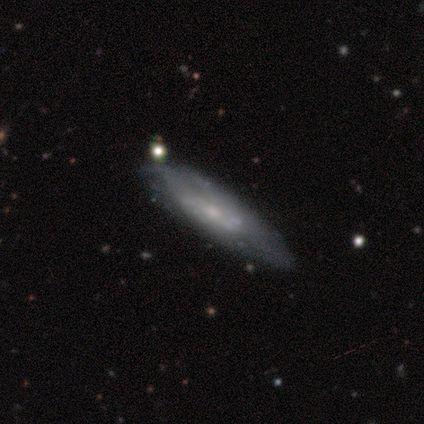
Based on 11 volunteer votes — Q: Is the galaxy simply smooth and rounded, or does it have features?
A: smooth — 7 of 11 (64%).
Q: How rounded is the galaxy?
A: cigar-shaped — 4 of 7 (57%).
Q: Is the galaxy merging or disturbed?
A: none — 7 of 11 (64%).